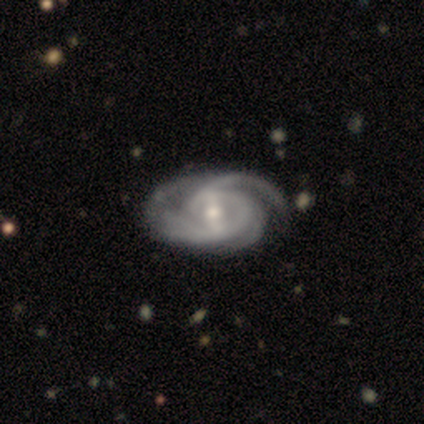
A featured or disk galaxy (97%) with a strong bar (39%), 2 (39%) tight (82%) spiral arms (100%) and a moderate central bulge (55%). Merging: none (53%).